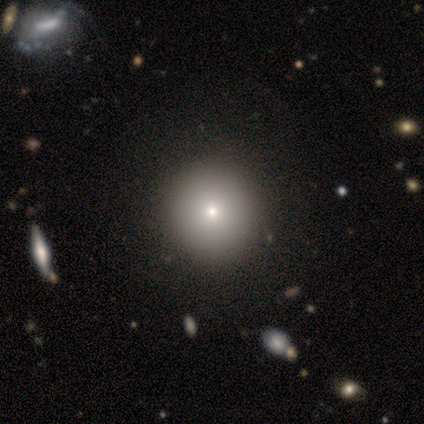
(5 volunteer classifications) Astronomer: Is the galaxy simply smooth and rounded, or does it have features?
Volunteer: smooth — 60%.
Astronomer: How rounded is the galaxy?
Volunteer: round — 100%.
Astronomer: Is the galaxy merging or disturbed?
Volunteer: none — 100%.